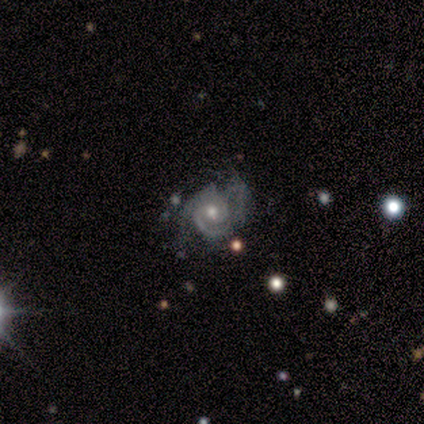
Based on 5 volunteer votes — Morphology: type=featured or disk (80%); edge-on=no (100%); bar=no (75%); spiral arms=yes (100%); winding=tight (75%); arm count=2 (100%); bulge=moderate (75%); merging=none (50%, tied with minor disturbance).